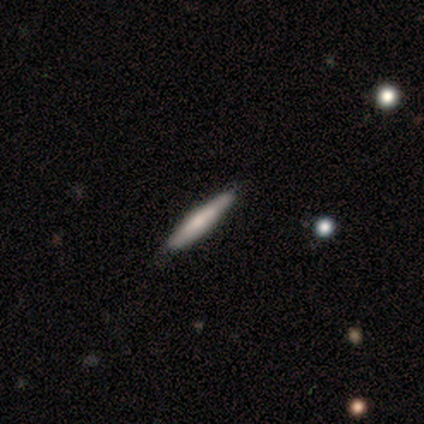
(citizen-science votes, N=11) Morphology: type=smooth (55%); roundness=cigar-shaped (100%); merging=none (91%).